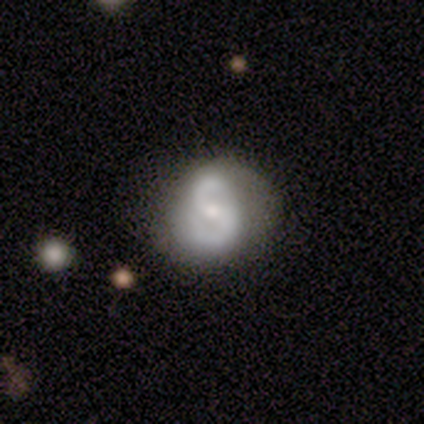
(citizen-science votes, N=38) A featured or disk galaxy (79%) with no bar (47%), 2 (100%) medium (48%) spiral arms (90%) and a small central bulge (57%).

Vote fractions:
- Smooth or featured? featured or disk: 79% / smooth: 11% / star or artifact: 11%
- Edge-on disk? no: 100% / yes: 0%
- Bar? no: 47% / weak: 33% / strong: 20%
- Spiral arms? yes: 90% / no: 10%
- Spiral winding? medium: 48% / loose: 30% / tight: 22%
- Spiral arm count? 2: 100% / 1: 0% / 3: 0% / 4: 0% / more than 4: 0% / can't tell: 0%
- Bulge size? small: 57% / moderate: 37% / large: 3% / none: 3% / dominant: 0%
- Merging? none: 82% / minor disturbance: 15% / merger: 3% / major disturbance: 0%